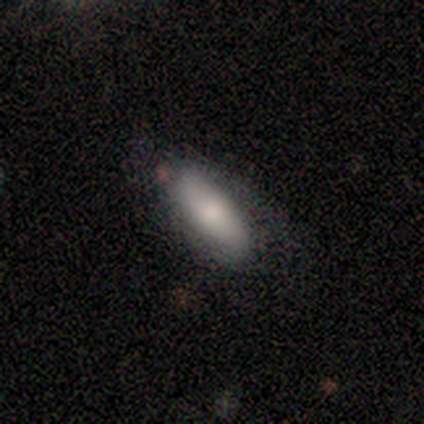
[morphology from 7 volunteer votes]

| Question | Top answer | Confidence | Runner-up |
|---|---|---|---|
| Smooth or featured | smooth | 57% | star or artifact (29%) |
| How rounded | in between | 75% | cigar-shaped (25%) |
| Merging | none | 60% | minor disturbance (40%) |